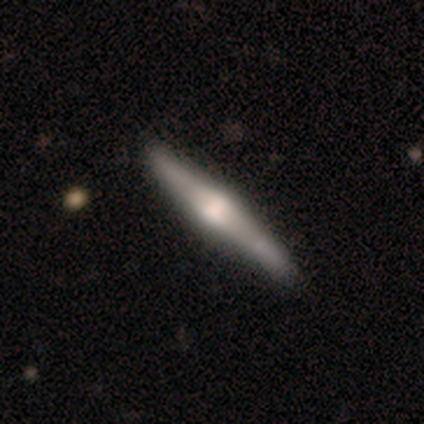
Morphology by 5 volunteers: Q: Smooth or featured?
A: featured or disk (80%); runner-up: smooth (20%)
Q: Edge-on disk?
A: yes (100%)
Q: Edge-on bulge?
A: rounded (100%)
Q: Merging?
A: none (60%); runner-up: minor disturbance (40%)